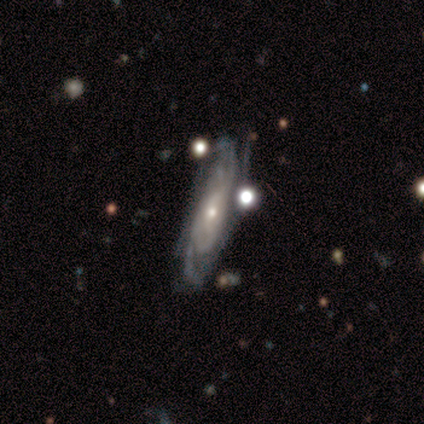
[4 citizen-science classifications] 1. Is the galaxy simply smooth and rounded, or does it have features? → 100% featured or disk, 0% smooth, 0% star or artifact.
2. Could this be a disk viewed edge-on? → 100% no, 0% yes.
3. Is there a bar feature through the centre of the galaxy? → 75% no, 25% strong, 0% weak.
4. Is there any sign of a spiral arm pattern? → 100% yes, 0% no.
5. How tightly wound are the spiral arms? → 75% tight, 25% medium, 0% loose.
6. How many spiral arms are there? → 25% 2 (tied), 25% 3 (tied), 25% 4 (tied), 25% can't tell (tied), 0% 1, 0% more than 4.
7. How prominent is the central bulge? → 75% small, 25% moderate, 0% dominant, 0% large, 0% none.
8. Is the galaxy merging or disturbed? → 100% none, 0% minor disturbance, 0% major disturbance, 0% merger.